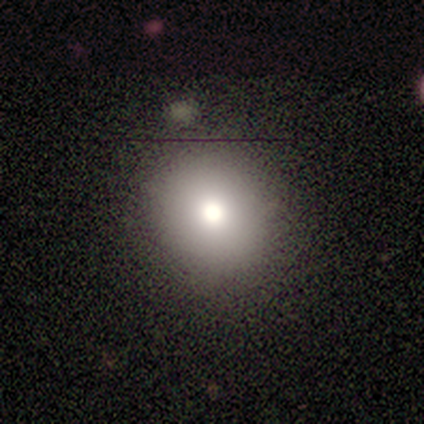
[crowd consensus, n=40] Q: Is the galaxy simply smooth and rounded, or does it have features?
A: smooth — 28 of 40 (70%).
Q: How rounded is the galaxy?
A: round — 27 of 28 (96%).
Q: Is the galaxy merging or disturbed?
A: none — 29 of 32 (91%).